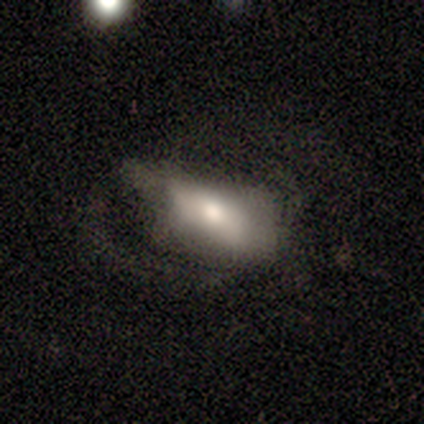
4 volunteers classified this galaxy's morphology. featured or disk 100%, smooth 0%, star or artifact 0%. Down the decision tree: edge-on disk — no (75%); bar — no (67%); spiral arms — no (67%); bulge size — moderate (33%, tied with small and none); merging — major disturbance (50%).